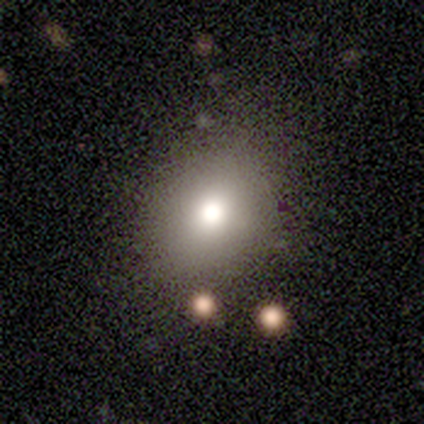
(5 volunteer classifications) Smooth or featured: smooth — 60% (featured or disk — 20%)
How rounded: in between — 100%
Merging: none — 75% (minor disturbance — 25%)